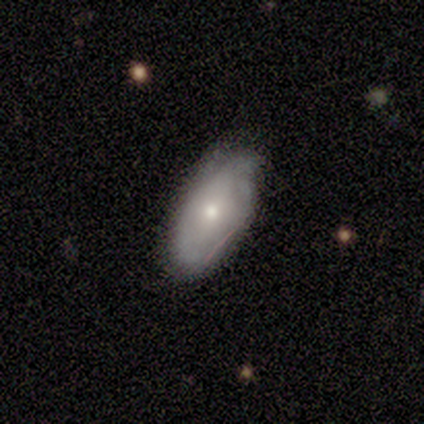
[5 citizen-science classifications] Smooth or featured?
  - smooth: 60% *
  - featured or disk: 40%
  - star or artifact: 0%
How rounded?
  - in between: 67% *
  - round: 33%
  - cigar-shaped: 0%
Merging?
  - none: 60% *
  - minor disturbance: 40%
  - major disturbance: 0%
  - merger: 0%